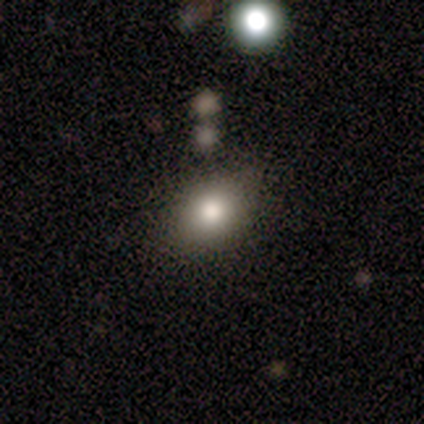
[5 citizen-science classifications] This is likely a smooth galaxy (60%). How rounded: likely round (67%). Merging: clearly none (100%).